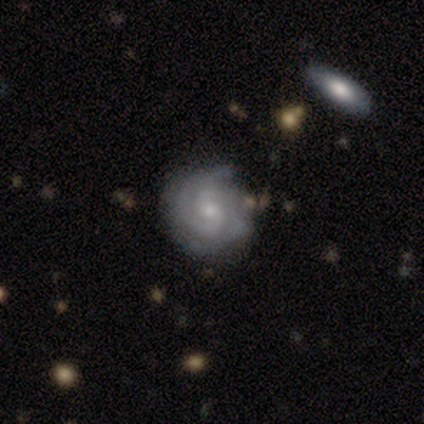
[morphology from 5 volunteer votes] Smooth or featured: featured or disk — 80% (star or artifact — 20%)
Edge-on disk: no — 75% (yes — 25%)
Bar: no — 67% (weak — 33%)
Spiral arms: yes — 100%
Spiral winding: tight — 67% (medium — 33%)
Spiral arm count: 2 — 67% (3 — 33%)
Bulge size: small — 100%
Merging: none — 100%